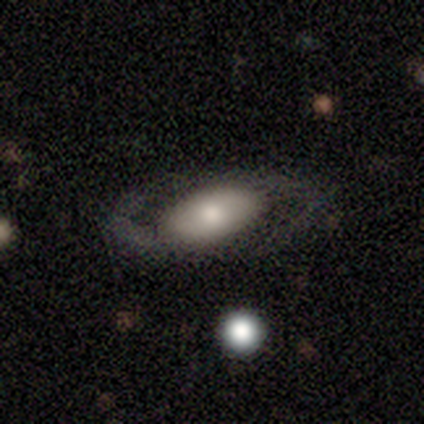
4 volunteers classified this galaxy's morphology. smooth 50% (tied), featured or disk 50% (tied), star or artifact 0%. Down the decision tree: how rounded — in between (100%); merging — none (75%).